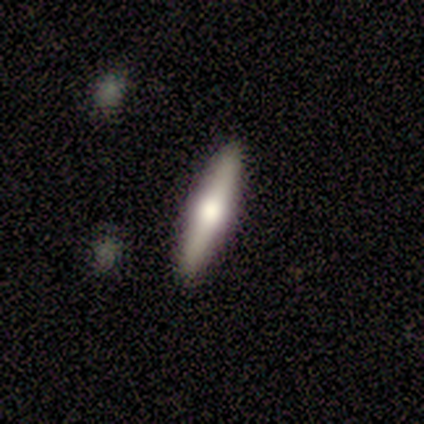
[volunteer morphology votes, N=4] type=smooth (50%); roundness=cigar-shaped (100%); merging=none (67%).